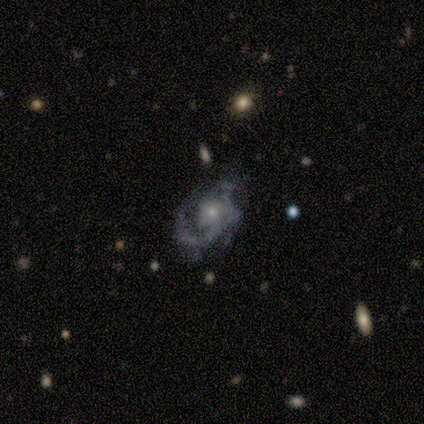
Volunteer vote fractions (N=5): A featured or disk galaxy (80%) with no bar (100%), 1 (100%) medium (67%) spiral arms (75%) and a small central bulge (75%).

Vote fractions:
- Smooth or featured? featured or disk: 80% / star or artifact: 20% / smooth: 0%
- Edge-on disk? no: 100% / yes: 0%
- Bar? no: 100% / strong: 0% / weak: 0%
- Spiral arms? yes: 75% / no: 25%
- Spiral winding? medium: 67% / loose: 33% / tight: 0%
- Spiral arm count? 1: 100% / 2: 0% / 3: 0% / 4: 0% / more than 4: 0% / can't tell: 0%
- Bulge size? small: 75% / moderate: 25% / dominant: 0% / large: 0% / none: 0%
- Merging? major disturbance: 50% / none: 25% / minor disturbance: 25% / merger: 0%